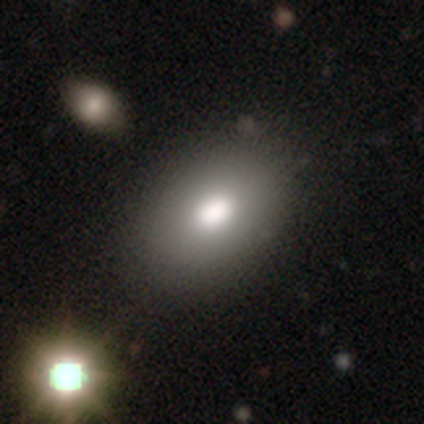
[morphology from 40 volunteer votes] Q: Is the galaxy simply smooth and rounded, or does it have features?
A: smooth — 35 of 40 (88%).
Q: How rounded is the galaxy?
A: in between — 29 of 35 (83%).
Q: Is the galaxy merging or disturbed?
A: none — 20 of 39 (51%).